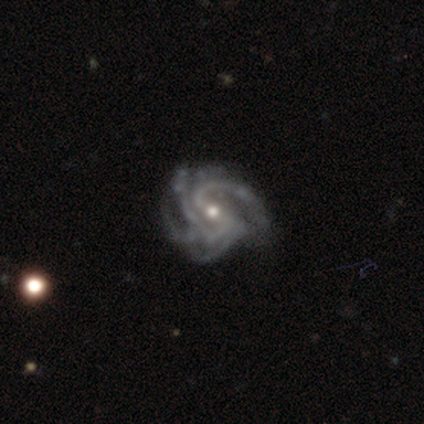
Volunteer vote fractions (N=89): A featured or disk galaxy (93%) with a weak bar (46%), 3 (40%) tight (62%) spiral arms (98%) and a small central bulge (51%).

Vote fractions:
- Smooth or featured? featured or disk: 93% / smooth: 3% / star or artifact: 3%
- Edge-on disk? no: 96% / yes: 4%
- Bar? weak: 46% / no: 30% / strong: 24%
- Spiral arms? yes: 98% / no: 2%
- Spiral winding? tight: 62% / medium: 35% / loose: 4%
- Spiral arm count? 3: 40% / 4: 31% / can't tell: 13% / 2: 10% / more than 4: 6% / 1: 0%
- Bulge size? small: 51% / moderate: 48% / none: 1% / dominant: 0% / large: 0%
- Merging? none: 57% / minor disturbance: 30% / major disturbance: 13% / merger: 0%